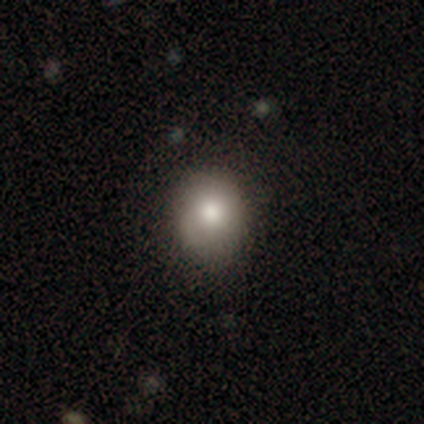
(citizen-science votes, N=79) Smooth or featured? 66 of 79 (84%) said smooth. How rounded? 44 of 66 (67%) said round. Merging? 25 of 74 (34%) said none.